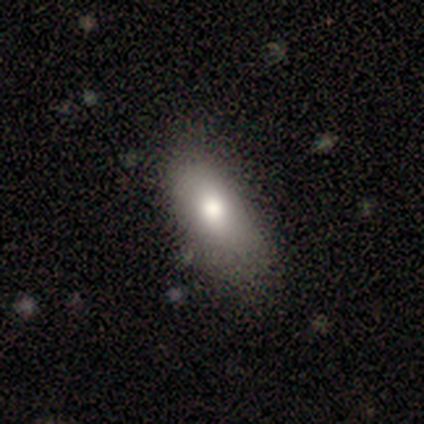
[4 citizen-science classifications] This appears to be a smooth galaxy with no disk features (100%) that is in between round and cigar-shaped (100%). Merging: none (75%).